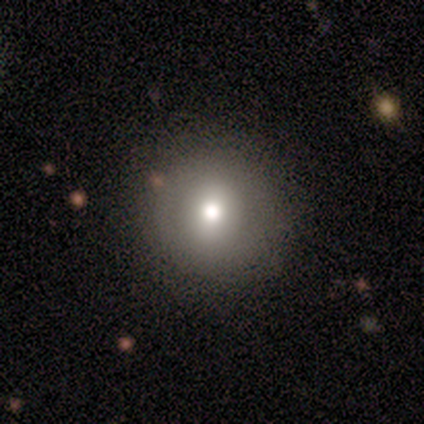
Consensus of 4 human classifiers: Smooth or featured? 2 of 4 (50%, tied with featured or disk) said smooth. How rounded? 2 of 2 (100%) said round. Merging? 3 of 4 (75%) said none.